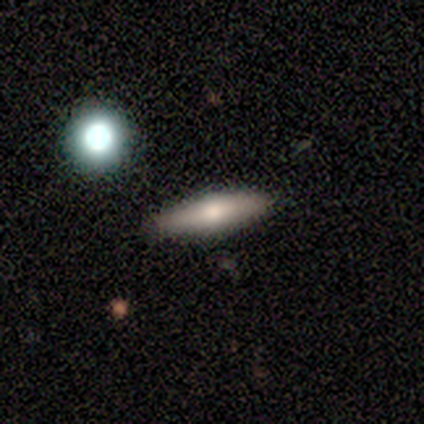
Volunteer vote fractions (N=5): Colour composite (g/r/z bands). It shows a smooth galaxy with no disk features (60%) that is cigar-shaped (67%). Merging: none (100%).